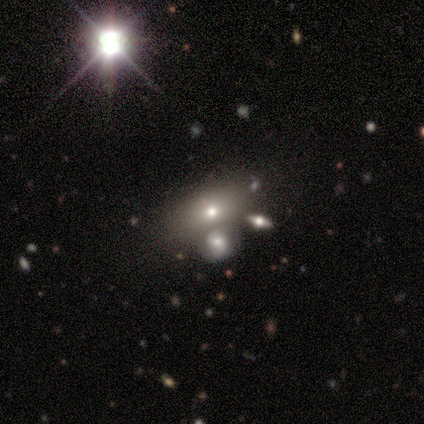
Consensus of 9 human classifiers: This is possibly a smooth galaxy (56%). How rounded: likely in between (60%). Merging: likely none (62%).